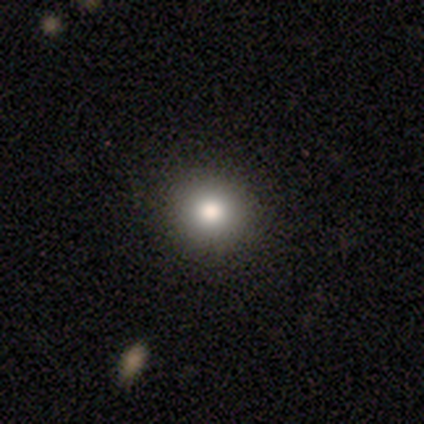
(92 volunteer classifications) smooth 77%, star or artifact 16%, featured or disk 7%. Down the decision tree: how rounded — round (94%); merging — none (94%).